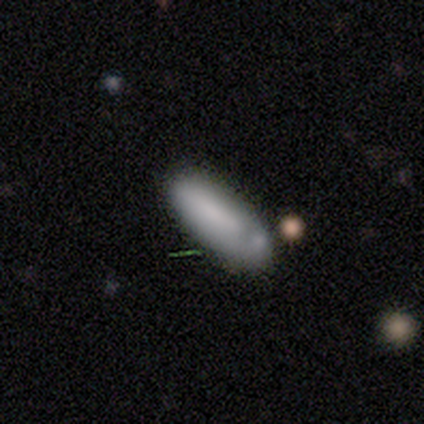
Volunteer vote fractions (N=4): Smooth or featured?
  - smooth: 50% * (tied)
  - featured or disk: 50% * (tied)
  - star or artifact: 0%
How rounded?
  - cigar-shaped: 100% *
  - round: 0%
  - in between: 0%
Merging?
  - none: 75% *
  - minor disturbance: 25%
  - major disturbance: 0%
  - merger: 0%